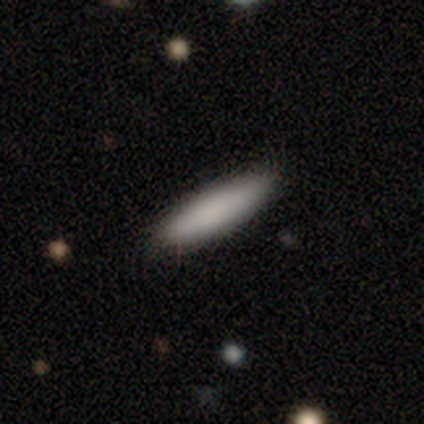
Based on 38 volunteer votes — A smooth galaxy with no disk features (89%) that is cigar-shaped (71%).

Vote fractions:
- Smooth or featured? smooth: 89% / featured or disk: 5% / star or artifact: 5%
- How rounded? cigar-shaped: 71% / in between: 29% / round: 0%
- Merging? none: 53% / minor disturbance: 6% / major disturbance: 0% / merger: 0%